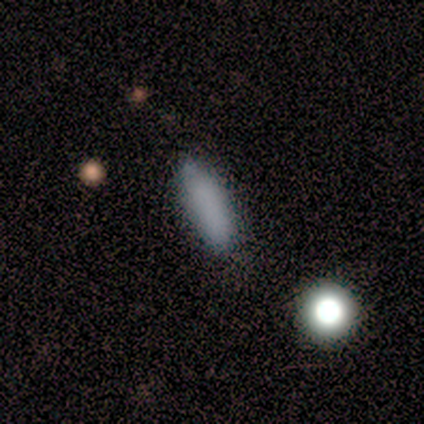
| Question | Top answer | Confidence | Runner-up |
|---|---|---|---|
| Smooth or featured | smooth | 75% | featured or disk (12%) |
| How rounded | in between | 50% | tied: cigar-shaped (50%) |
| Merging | none | 86% | minor disturbance (14%) |